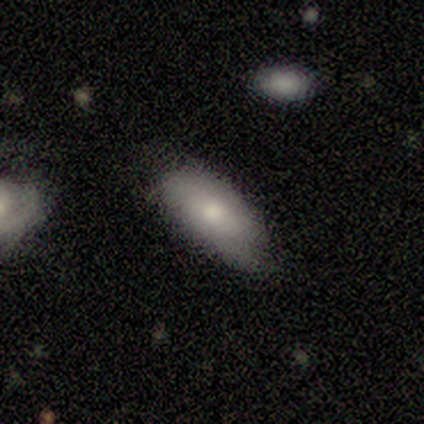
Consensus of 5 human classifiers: Smooth or featured?
  - smooth: 60% *
  - featured or disk: 20%
  - star or artifact: 20%
How rounded?
  - in between: 100% *
  - round: 0%
  - cigar-shaped: 0%
Merging?
  - none: 100% *
  - minor disturbance: 0%
  - major disturbance: 0%
  - merger: 0%